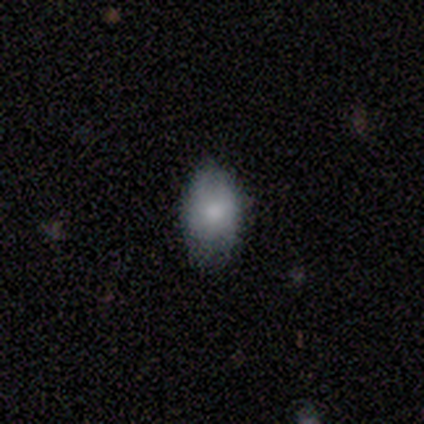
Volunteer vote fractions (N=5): This appears to be a smooth galaxy with no disk features (60%) that is in between round and cigar-shaped (67%). Merging: minor disturbance (67%).